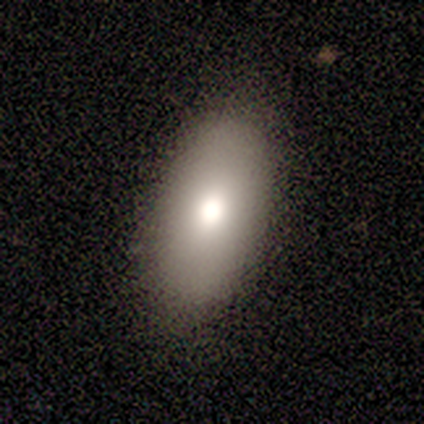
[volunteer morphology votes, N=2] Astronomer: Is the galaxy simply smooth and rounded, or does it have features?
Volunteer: smooth — 100%.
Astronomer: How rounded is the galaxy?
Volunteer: in between — 100%.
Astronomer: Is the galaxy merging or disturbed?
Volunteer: none — 100%.